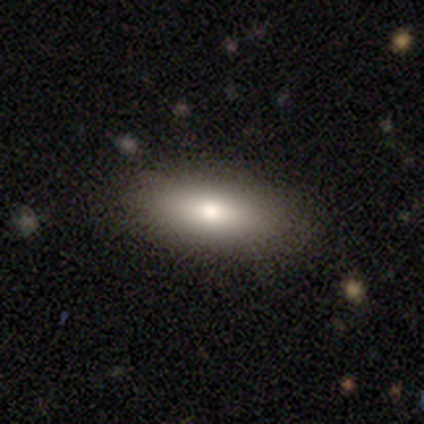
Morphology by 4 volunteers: A smooth galaxy with no disk features (100%) that is in between round and cigar-shaped (100%). Merging: none (100%).